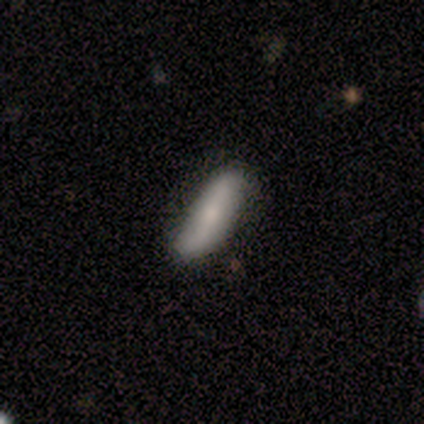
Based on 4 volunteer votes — Morphology: type=smooth (75%); roundness=cigar-shaped (67%); merging=none (50%, tied with minor disturbance).